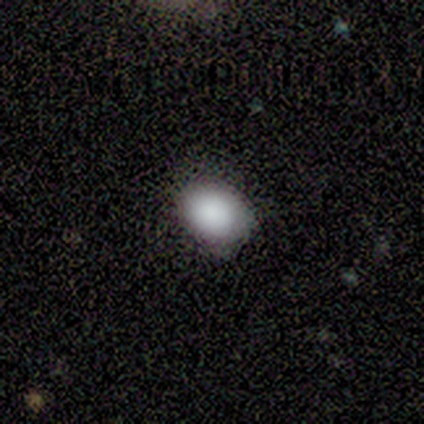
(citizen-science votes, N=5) This appears to be a smooth galaxy with no disk features (100%) that is in between round and cigar-shaped (80%). Merging: none (100%).